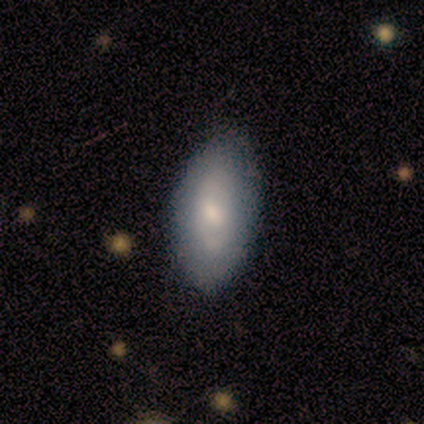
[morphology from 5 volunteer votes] This appears to be a smooth galaxy with no disk features (60%) that is in between round and cigar-shaped (100%). Merging: none (100%).